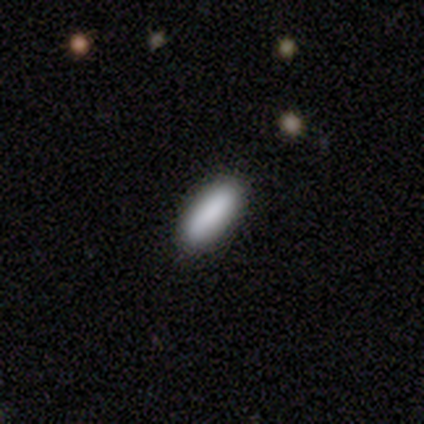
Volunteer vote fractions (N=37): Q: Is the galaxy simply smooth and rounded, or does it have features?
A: smooth — 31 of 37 (84%).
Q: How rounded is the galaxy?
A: in between — 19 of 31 (61%).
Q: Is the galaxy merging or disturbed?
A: none — 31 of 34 (91%).